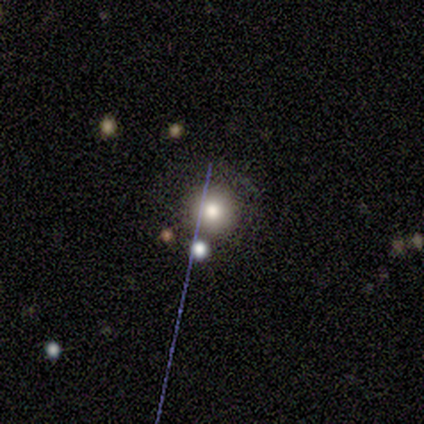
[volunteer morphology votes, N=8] A smooth galaxy with no disk features (100%) that is round (100%).

Vote fractions:
- Smooth or featured? smooth: 100% / featured or disk: 0% / star or artifact: 0%
- How rounded? round: 100% / in between: 0% / cigar-shaped: 0%
- Merging? none: 88% / minor disturbance: 12% / major disturbance: 0% / merger: 0%